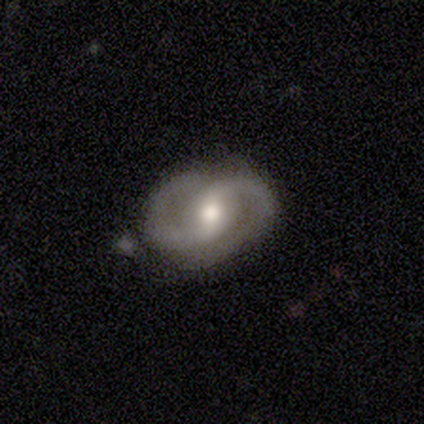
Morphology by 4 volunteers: featured or disk 75%, smooth 25%, star or artifact 0%. Down the decision tree: edge-on disk — no (100%); bar — no (67%); spiral arms — yes (100%); spiral arm count — 2 (100%); spiral winding — tight (67%); bulge size — moderate (100%); merging — none (75%).